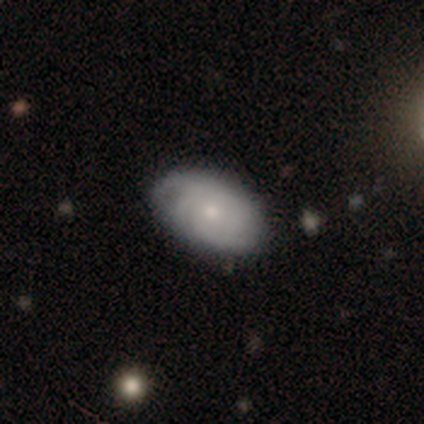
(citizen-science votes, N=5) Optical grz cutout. It shows a featured or disk galaxy (60%) with no bar (67%), 3 (33%, tied with 4 and can't tell) tight (100%) spiral arms (100%) and a small central bulge (100%). Merging: none (60%).